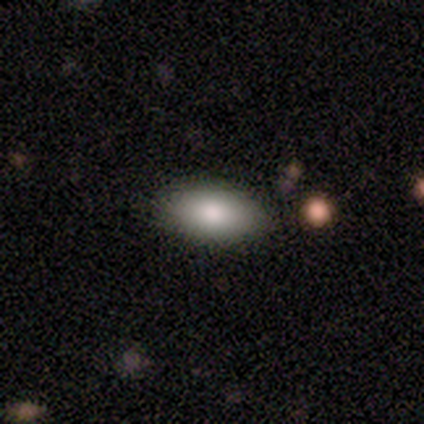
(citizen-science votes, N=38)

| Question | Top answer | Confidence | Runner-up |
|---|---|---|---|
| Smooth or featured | smooth | 76% | featured or disk (13%) |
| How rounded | in between | 83% | cigar-shaped (14%) |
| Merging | none | 85% | minor disturbance (12%) |